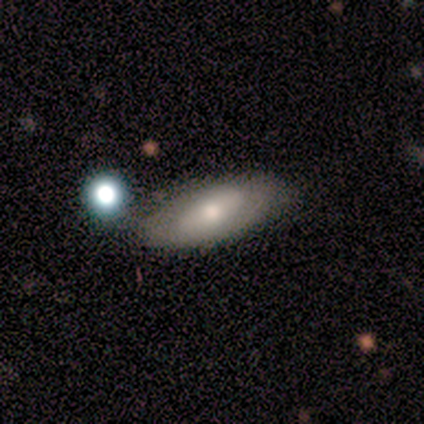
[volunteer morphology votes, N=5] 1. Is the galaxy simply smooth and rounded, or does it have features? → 40% smooth (tied), 40% featured or disk (tied), 20% star or artifact.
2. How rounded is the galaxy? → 100% in between, 0% round, 0% cigar-shaped.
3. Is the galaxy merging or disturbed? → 100% none, 0% minor disturbance, 0% major disturbance, 0% merger.